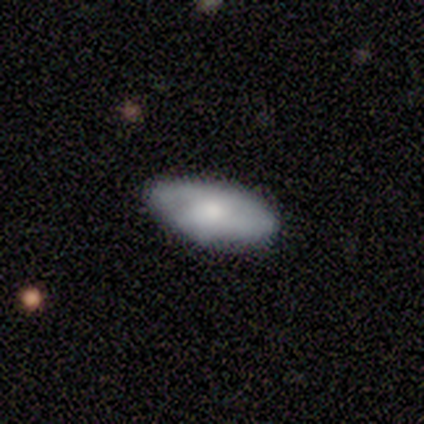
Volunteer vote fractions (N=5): Smooth or featured? 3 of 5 (60%) said smooth. How rounded? 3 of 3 (100%) said in between. Merging? 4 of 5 (80%) said none.